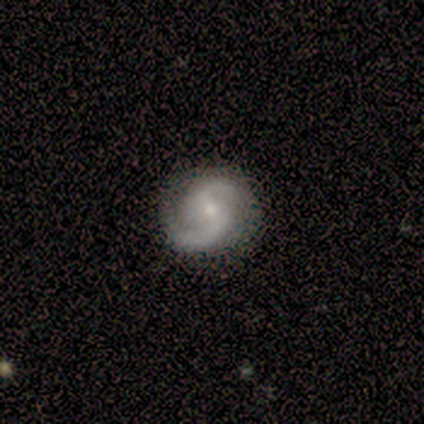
A featured or disk galaxy (100%) with a weak bar (80%), 2 (80%) medium (80%) spiral arms (100%) and a small central bulge (80%).

Vote fractions:
- Smooth or featured? featured or disk: 100% / smooth: 0% / star or artifact: 0%
- Edge-on disk? no: 100% / yes: 0%
- Bar? weak: 80% / no: 20% / strong: 0%
- Spiral arms? yes: 100% / no: 0%
- Spiral winding? medium: 80% / loose: 20% / tight: 0%
- Spiral arm count? 2: 80% / 1: 20% / 3: 0% / 4: 0% / more than 4: 0% / can't tell: 0%
- Bulge size? small: 80% / moderate: 20% / dominant: 0% / large: 0% / none: 0%
- Merging? none: 100% / minor disturbance: 0% / major disturbance: 0% / merger: 0%